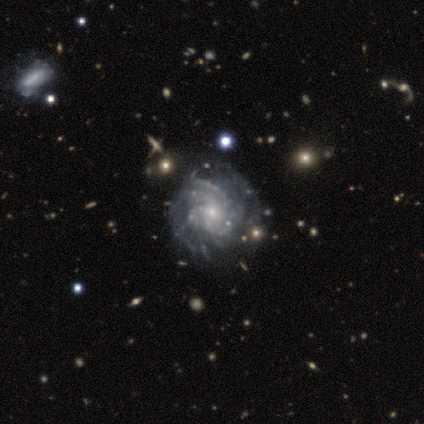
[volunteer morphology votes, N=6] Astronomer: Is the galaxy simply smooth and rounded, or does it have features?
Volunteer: featured or disk — 100%.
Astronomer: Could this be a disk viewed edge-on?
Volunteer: no — 100%.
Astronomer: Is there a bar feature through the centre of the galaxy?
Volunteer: no — 83%.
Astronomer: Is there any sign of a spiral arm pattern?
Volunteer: yes — 100%.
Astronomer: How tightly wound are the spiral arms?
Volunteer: tight — 83%.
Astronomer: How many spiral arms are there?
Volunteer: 4 — 83%.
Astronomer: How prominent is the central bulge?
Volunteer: small — 100%.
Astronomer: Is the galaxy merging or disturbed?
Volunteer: none — 50% (runner-up: major disturbance, 33%).